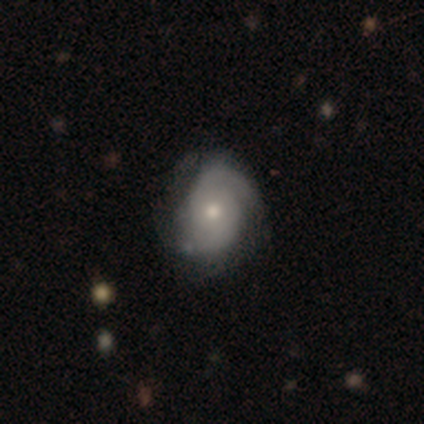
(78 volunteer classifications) smooth_or_featured: featured or disk (p=0.69) [alt: smooth p=0.29]
disk_edge_on: no (p=1.00)
bar: no (p=0.96) [alt: weak p=0.04]
has_spiral_arms: yes (p=0.91) [alt: no p=0.09]
spiral_winding: tight (p=0.61) [alt: medium p=0.29]
spiral_arm_count: 2 (p=0.53) [alt: can't tell p=0.29]
bulge_size: moderate (p=0.50) [alt: small p=0.46]
merging: none (p=0.29) [alt: minor disturbance p=0.19]